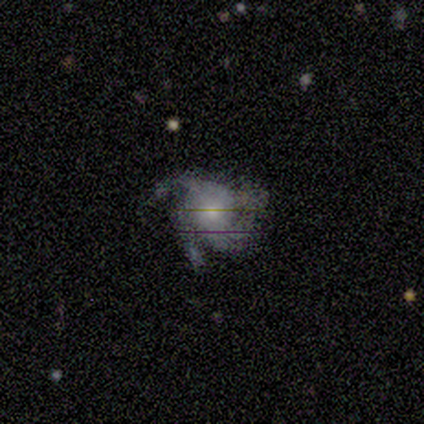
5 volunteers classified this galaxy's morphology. type=featured or disk (80%); edge-on=no (100%); bar=no (75%); spiral arms=yes (100%); winding=medium (75%); arm count=3 (75%); bulge=moderate (50%, tied with small); merging=none (80%).